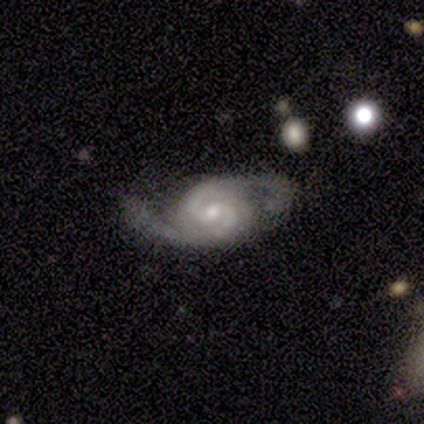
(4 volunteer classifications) Smooth or featured? 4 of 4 (100%) said featured or disk. Edge-on disk? 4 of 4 (100%) said no. Bar? 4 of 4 (100%) said no. Spiral arms? 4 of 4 (100%) said yes. Spiral winding? 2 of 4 (50%, tied with medium) said tight. Spiral arm count? 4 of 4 (100%) said 2. Bulge size? 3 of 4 (75%) said small. Merging? 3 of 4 (75%) said none.